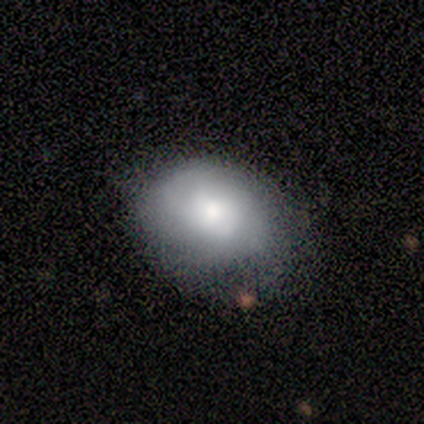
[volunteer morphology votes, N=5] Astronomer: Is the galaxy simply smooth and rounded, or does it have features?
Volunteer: featured or disk — 60%.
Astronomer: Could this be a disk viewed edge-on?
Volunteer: no — 100%.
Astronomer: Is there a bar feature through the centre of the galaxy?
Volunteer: no — 100%.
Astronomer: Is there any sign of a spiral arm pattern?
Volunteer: no — 67%.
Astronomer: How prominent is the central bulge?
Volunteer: large — 67%.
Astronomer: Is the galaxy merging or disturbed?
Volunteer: none — 50%.